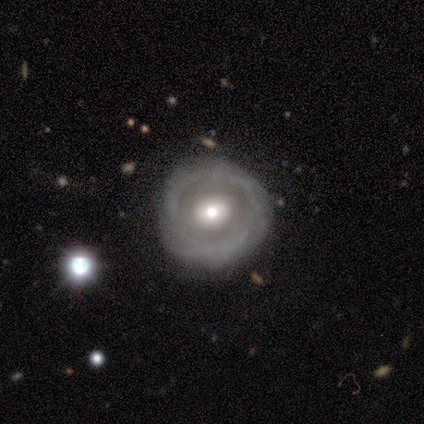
smooth_or_featured: featured or disk (p=0.80) [alt: smooth p=0.20]
disk_edge_on: no (p=1.00)
bar: no (p=0.75) [alt: weak p=0.25]
has_spiral_arms: yes (p=0.50) [tied with: no p=0.50]
spiral_winding: medium (p=1.00)
spiral_arm_count: can't tell (p=1.00)
bulge_size: small (p=0.50) [alt: large p=0.25]
merging: none (p=0.80) [alt: minor disturbance p=0.20]